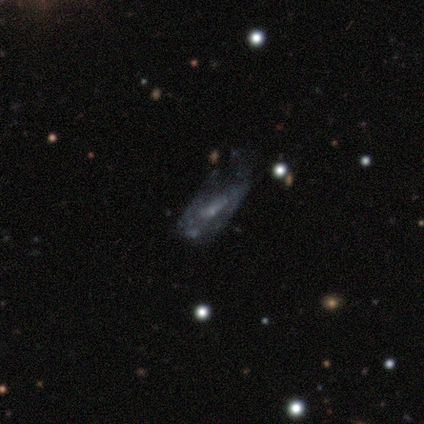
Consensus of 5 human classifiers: This appears to be a featured or disk galaxy (80%) with no bar (100%), no spiral arms (67%) and a small central bulge (67%). Merging: none (40%).